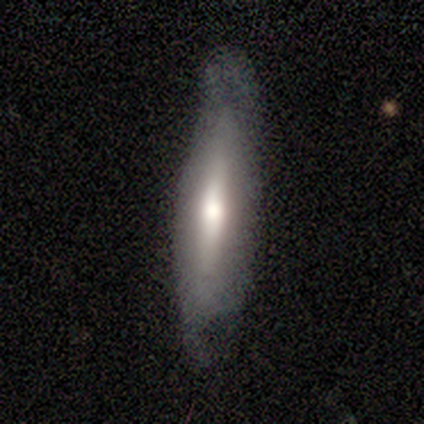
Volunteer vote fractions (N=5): Smooth or featured? featured or disk (60%)
Edge-on disk? yes (67%)
Edge-on bulge? none (50%, tied with rounded)
Merging? none (80%)